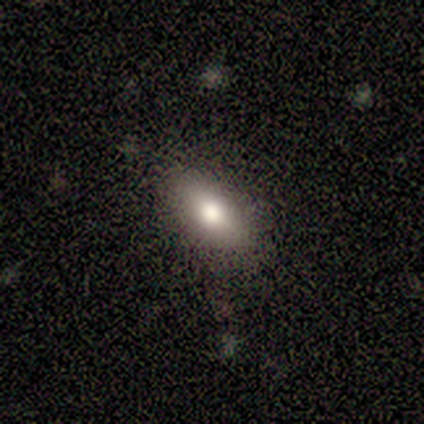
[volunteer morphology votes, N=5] smooth-or-featured: smooth: 100% | featured or disk: 0% | star or artifact: 0%
  how-rounded: in between: 60% | round: 20% | cigar-shaped: 20%
  merging: none: 100% | minor disturbance: 0% | major disturbance: 0% | merger: 0%